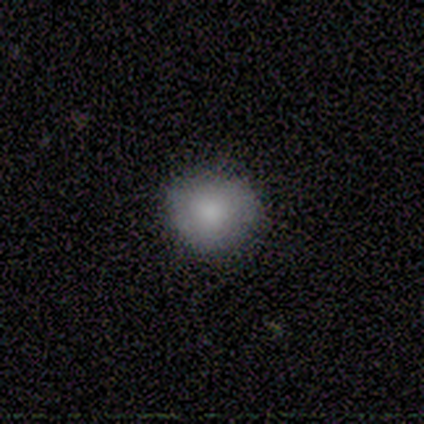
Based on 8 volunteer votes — Smooth or featured: smooth — 88% (featured or disk — 12%)
How rounded: round — 100%
Merging: none — 100%